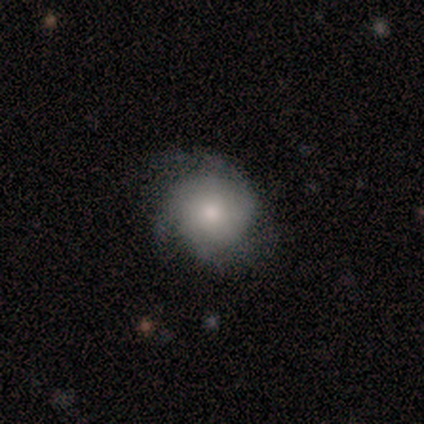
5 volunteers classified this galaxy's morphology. This is clearly a featured or disk galaxy (80%). It is clearly not viewed edge-on (100%). Bar: clearly no (100%). Spiral arm pattern: possibly yes (50%, tied with no). Spiral arm count: clearly 3 (100%). Spiral winding: clearly tight (100%). Central bulge: possibly small (50%). Merging: likely none (60%).